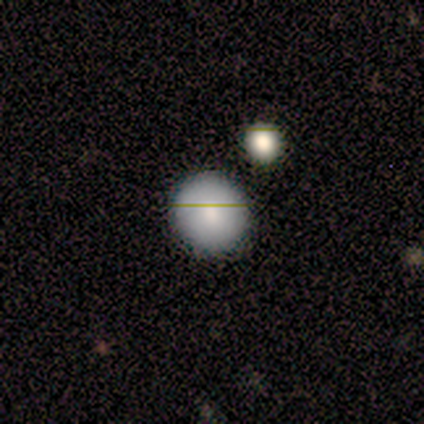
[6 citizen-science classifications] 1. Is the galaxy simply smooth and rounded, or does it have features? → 83% smooth, 17% featured or disk, 0% star or artifact.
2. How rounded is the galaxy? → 100% round, 0% in between, 0% cigar-shaped.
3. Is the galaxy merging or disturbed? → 100% none, 0% minor disturbance, 0% major disturbance, 0% merger.